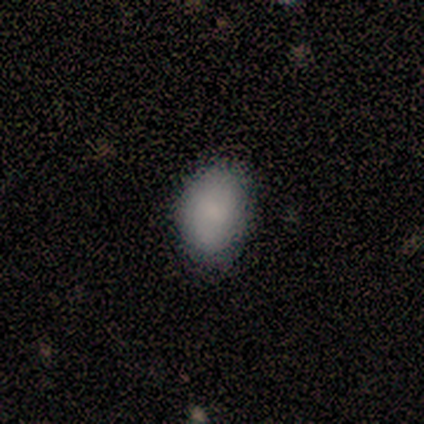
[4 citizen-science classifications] Smooth or featured? smooth (75%)
How rounded? in between (67%)
Merging? none (50%)